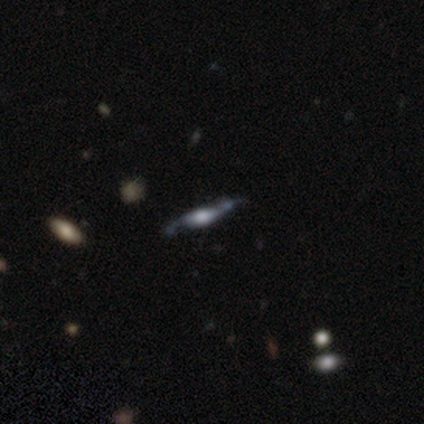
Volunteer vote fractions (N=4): Overall: featured or disk (75%). Edge-on disk: yes (100%). Edge-on bulge: none (67%; rounded 33%). Merging: none (75%).